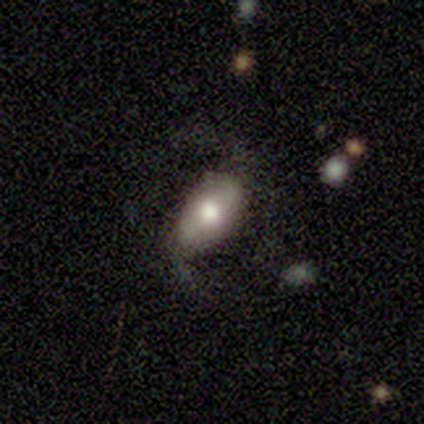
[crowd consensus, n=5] A smooth galaxy with no disk features (60%) that is in between round and cigar-shaped (100%). Merging: major disturbance (50%).